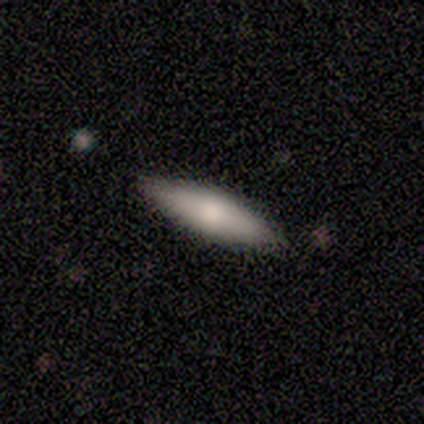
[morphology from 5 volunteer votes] smooth-or-featured: smooth: 100% | featured or disk: 0% | star or artifact: 0%
  how-rounded: cigar-shaped: 100% | round: 0% | in between: 0%
  merging: none: 60% | minor disturbance: 20% | major disturbance: 20% | merger: 0%